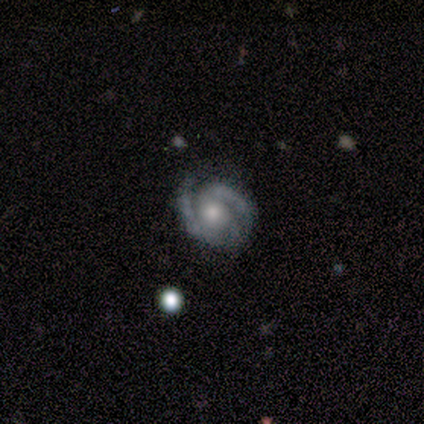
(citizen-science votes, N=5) smooth_or_featured: featured or disk (p=1.00)
disk_edge_on: no (p=0.80) [alt: yes p=0.20]
bar: no (p=1.00)
has_spiral_arms: yes (p=1.00)
spiral_winding: tight (p=0.75) [alt: medium p=0.25]
spiral_arm_count: 2 (p=0.50) [alt: 3 p=0.25]
bulge_size: moderate (p=1.00)
merging: none (p=0.80) [alt: minor disturbance p=0.20]